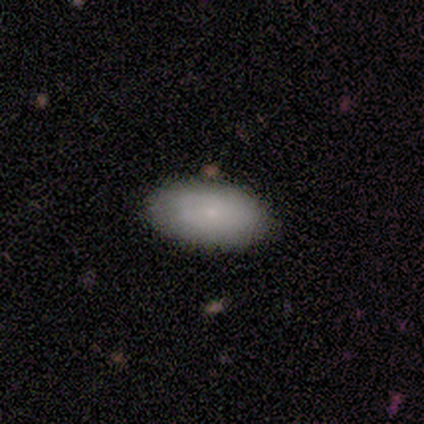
smooth_or_featured: smooth (p=1.00)
how_rounded: in between (p=0.80) [alt: round p=0.20]
merging: none (p=1.00)